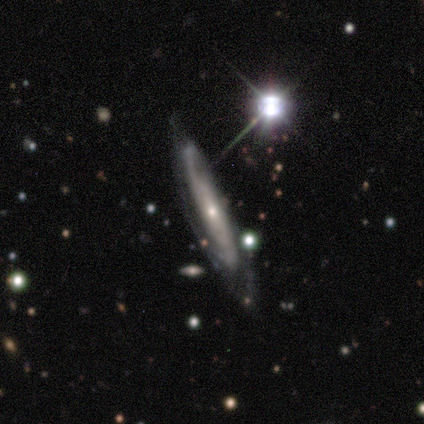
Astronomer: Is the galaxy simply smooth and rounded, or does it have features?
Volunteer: featured or disk — 100%.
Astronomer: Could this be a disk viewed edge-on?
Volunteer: yes — 100%.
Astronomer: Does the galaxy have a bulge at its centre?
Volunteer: rounded — 100%.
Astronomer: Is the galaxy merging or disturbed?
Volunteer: none — 100%.